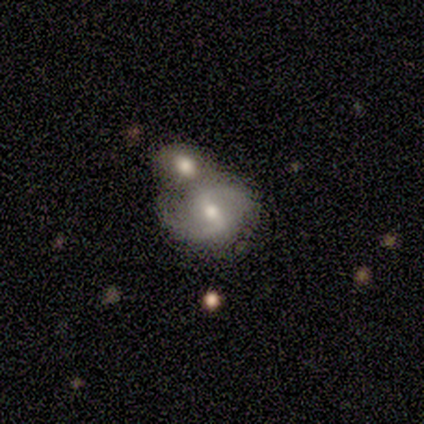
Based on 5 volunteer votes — Smooth or featured? 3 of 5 (60%) said featured or disk. Edge-on disk? 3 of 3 (100%) said no. Bar? 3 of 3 (100%) said weak. Spiral arms? 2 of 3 (67%) said yes. Spiral winding? 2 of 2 (100%) said medium. Spiral arm count? 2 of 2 (100%) said 2. Bulge size? 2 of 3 (67%) said moderate. Merging? 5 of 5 (100%) said merger.